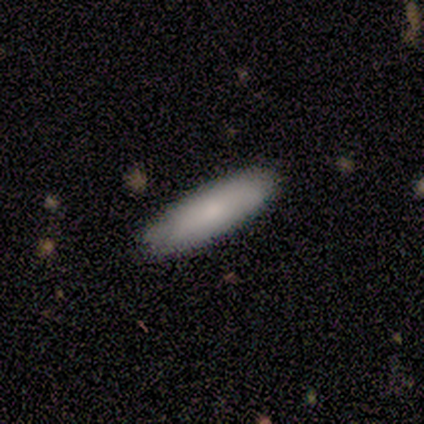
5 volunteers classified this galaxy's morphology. type=smooth (80%); roundness=in between (75%); merging=none (100%).